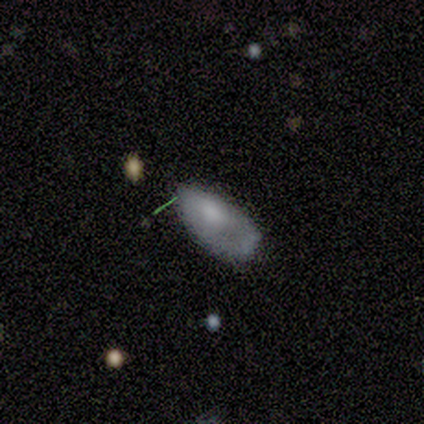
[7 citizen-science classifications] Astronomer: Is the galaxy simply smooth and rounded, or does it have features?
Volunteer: smooth — 86%.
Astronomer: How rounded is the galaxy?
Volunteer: in between — 100%.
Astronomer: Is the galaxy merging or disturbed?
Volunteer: minor disturbance — 71%.